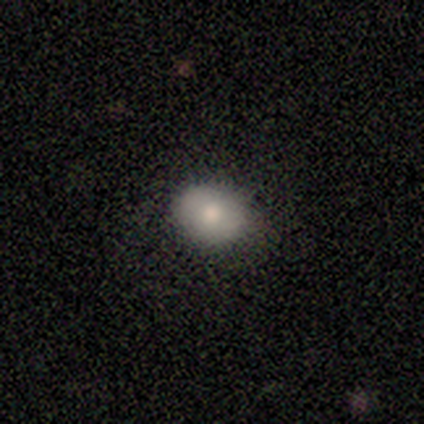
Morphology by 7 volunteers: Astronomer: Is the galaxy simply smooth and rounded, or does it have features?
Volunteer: smooth — 100%.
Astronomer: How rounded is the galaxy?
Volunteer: in between — 86%.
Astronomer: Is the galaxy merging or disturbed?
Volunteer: none — 86%.